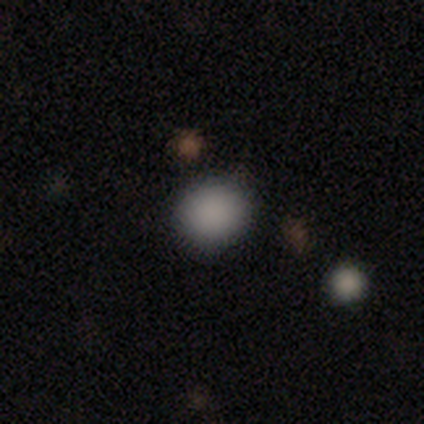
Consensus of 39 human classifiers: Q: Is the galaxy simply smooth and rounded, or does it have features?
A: smooth — 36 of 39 (92%).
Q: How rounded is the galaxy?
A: round — 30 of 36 (83%).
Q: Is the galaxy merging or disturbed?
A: none — 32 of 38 (84%).